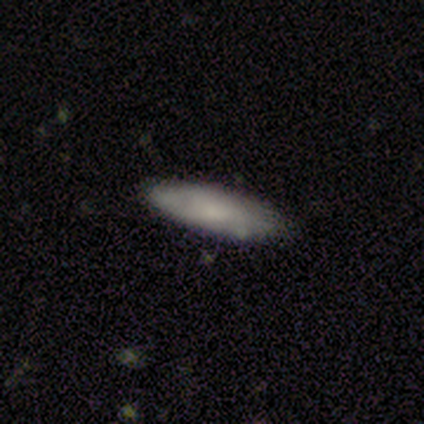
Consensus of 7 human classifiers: Smooth or featured: smooth — 71% (featured or disk — 29%)
How rounded: in between — 60% (cigar-shaped — 40%)
Merging: none — 86% (minor disturbance — 14%)